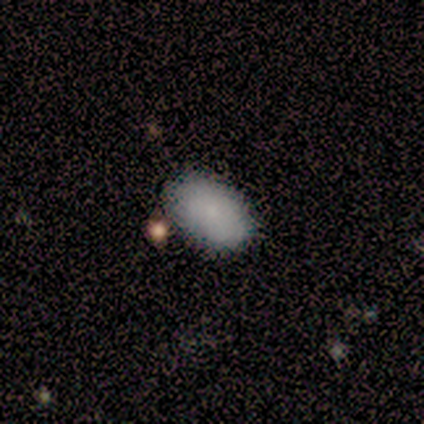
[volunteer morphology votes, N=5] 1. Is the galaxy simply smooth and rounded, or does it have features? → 100% smooth, 0% featured or disk, 0% star or artifact.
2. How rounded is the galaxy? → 100% in between, 0% round, 0% cigar-shaped.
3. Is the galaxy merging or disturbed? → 80% none, 20% minor disturbance, 0% major disturbance, 0% merger.